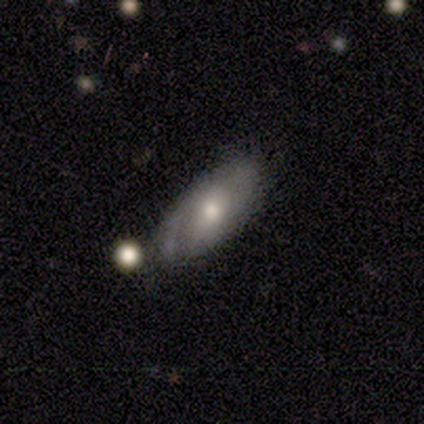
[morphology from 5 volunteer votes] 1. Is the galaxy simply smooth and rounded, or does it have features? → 80% smooth, 20% featured or disk, 0% star or artifact.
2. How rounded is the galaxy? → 100% in between, 0% round, 0% cigar-shaped.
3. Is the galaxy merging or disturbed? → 40% merger, 20% none, 20% minor disturbance, 20% major disturbance.